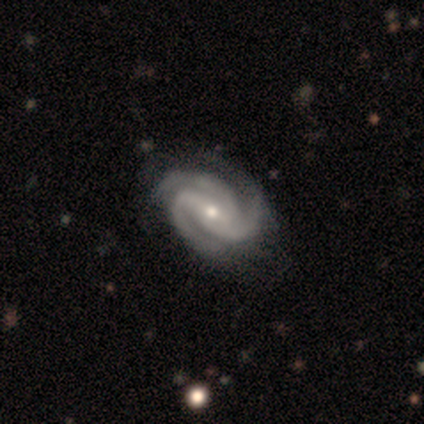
A featured or disk galaxy (100%) with no bar (60%), 3 (100%) tight (60%) spiral arms (100%) and a small central bulge (60%). Merging: none (80%).